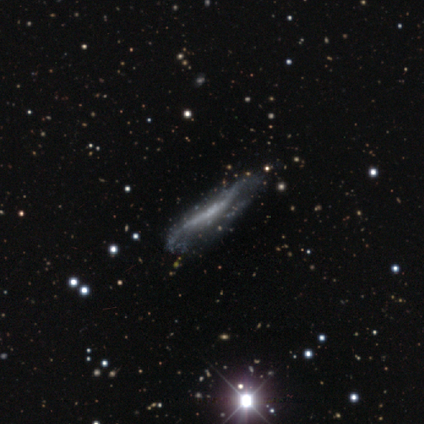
Morphology: type=featured or disk (70%); edge-on=yes (57%); edge-on bulge=none (81%); merging=none (44%).